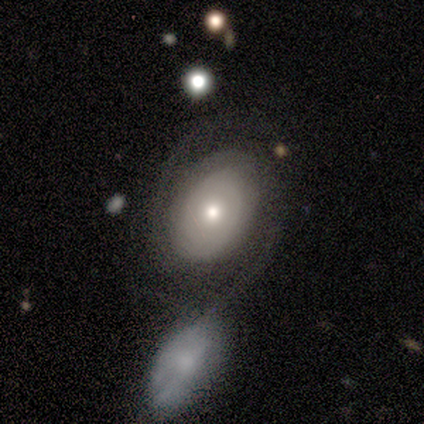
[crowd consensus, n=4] A featured or disk galaxy (100%) with no bar (75%), 2 (75%) medium (50%) spiral arms (100%) and a small central bulge (50%).

Vote fractions:
- Smooth or featured? featured or disk: 100% / smooth: 0% / star or artifact: 0%
- Edge-on disk? no: 100% / yes: 0%
- Bar? no: 75% / strong: 25% / weak: 0%
- Spiral arms? yes: 100% / no: 0%
- Spiral winding? medium: 50% / tight: 25% / loose: 25%
- Spiral arm count? 2: 75% / can't tell: 25% / 1: 0% / 3: 0% / 4: 0% / more than 4: 0%
- Bulge size? small: 50% / dominant: 25% / moderate: 25% / large: 0% / none: 0%
- Merging? none: 75% / minor disturbance: 25% / major disturbance: 0% / merger: 0%